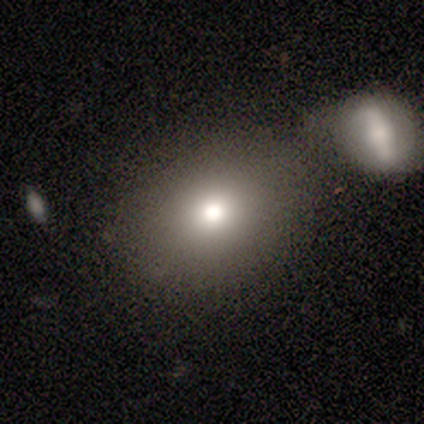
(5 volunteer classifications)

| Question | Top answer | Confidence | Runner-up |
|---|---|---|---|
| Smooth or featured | smooth | 100% | — |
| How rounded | in between | 60% | round (40%) |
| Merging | none | 80% | major disturbance (20%) |